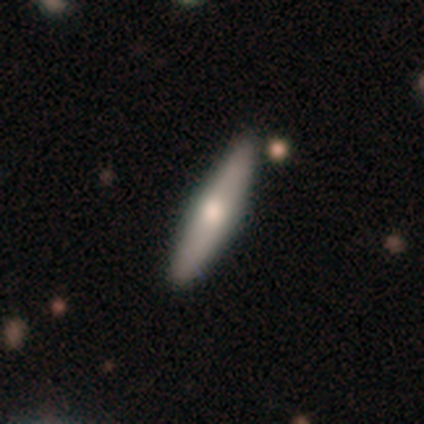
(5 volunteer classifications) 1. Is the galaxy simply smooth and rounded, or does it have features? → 60% smooth, 20% featured or disk, 20% star or artifact.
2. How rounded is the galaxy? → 67% cigar-shaped, 33% in between, 0% round.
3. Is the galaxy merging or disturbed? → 75% none, 25% minor disturbance, 0% major disturbance, 0% merger.